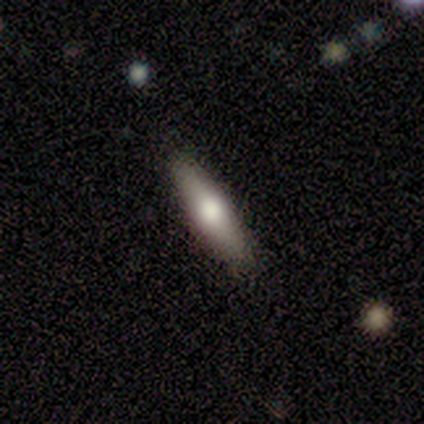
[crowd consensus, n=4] This is possibly a smooth galaxy (50%). How rounded: clearly cigar-shaped (100%). Merging: clearly none (100%).